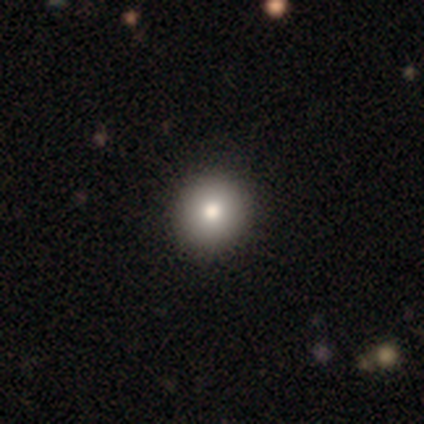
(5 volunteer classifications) Smooth or featured? 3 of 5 (60%) said smooth. How rounded? 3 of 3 (100%) said round. Merging? 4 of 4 (100%) said none.